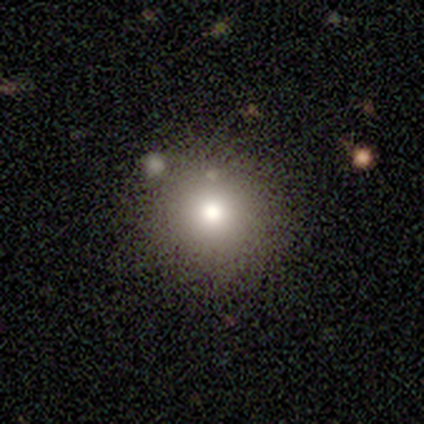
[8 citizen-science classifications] smooth 50%, featured or disk 25%, star or artifact 25%. Down the decision tree: how rounded — round (100%); merging — none (83%).